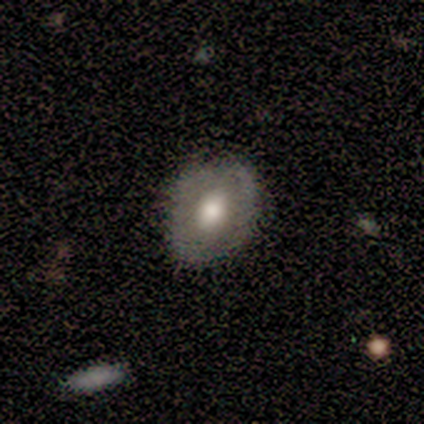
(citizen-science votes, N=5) A smooth galaxy with no disk features (60%) that is in between round and cigar-shaped (67%).

Vote fractions:
- Smooth or featured? smooth: 60% / featured or disk: 20% / star or artifact: 20%
- How rounded? in between: 67% / round: 33% / cigar-shaped: 0%
- Merging? none: 50% (tied) / minor disturbance: 50% (tied) / major disturbance: 0% / merger: 0%